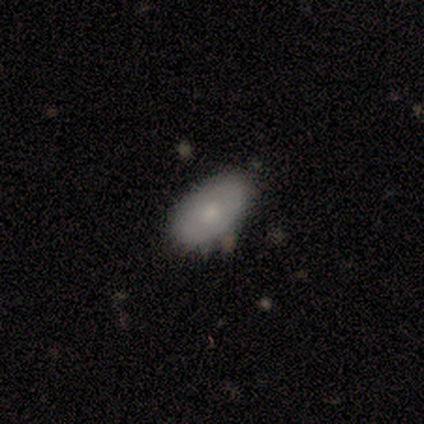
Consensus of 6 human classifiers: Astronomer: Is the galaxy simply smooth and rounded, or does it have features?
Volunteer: smooth — 83%.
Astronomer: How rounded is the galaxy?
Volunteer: in between — 100%.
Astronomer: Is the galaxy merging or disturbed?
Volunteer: none — 83%.